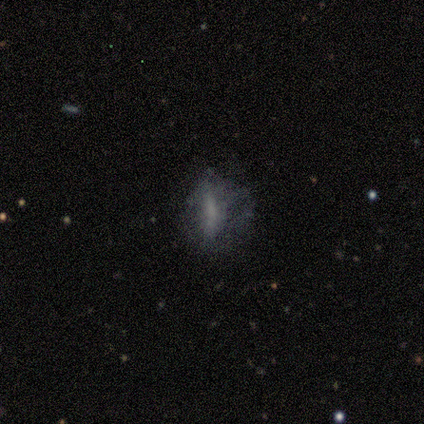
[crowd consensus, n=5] A featured or disk galaxy (60%) with no bar (100%), no spiral arms (100%) and no central bulge (67%).

Vote fractions:
- Smooth or featured? featured or disk: 60% / smooth: 20% / star or artifact: 20%
- Edge-on disk? no: 100% / yes: 0%
- Bar? no: 100% / strong: 0% / weak: 0%
- Spiral arms? no: 100% / yes: 0%
- Bulge size? none: 67% / moderate: 33% / dominant: 0% / large: 0% / small: 0%
- Merging? none: 50% (tied) / major disturbance: 50% (tied) / minor disturbance: 0% / merger: 0%